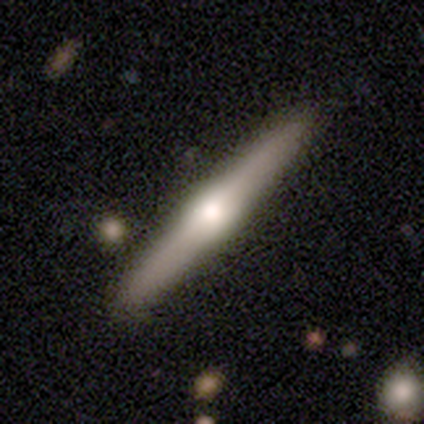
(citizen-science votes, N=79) smooth-or-featured: featured or disk: 86% | smooth: 11% | star or artifact: 3%
  disk-edge-on: yes: 97% | no: 3%
    edge-on-bulge: rounded: 89% | boxy: 11% | none: 0%
  merging: none: 83% | minor disturbance: 12% | merger: 4% | major disturbance: 1%